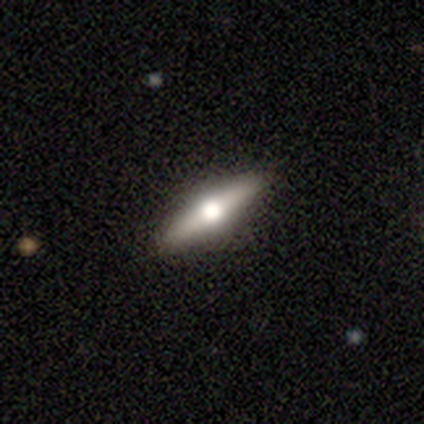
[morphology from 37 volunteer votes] Smooth or featured? featured or disk (68%)
Edge-on disk? yes (100%)
Edge-on bulge? rounded (96%)
Merging? none (92%)